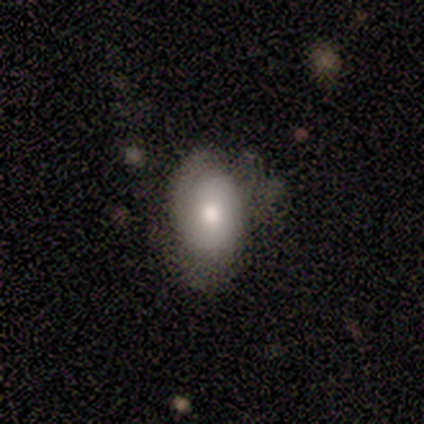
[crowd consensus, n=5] Overall: smooth (60%; star or artifact 40%). How rounded: in between (100%). Merging: none (100%).